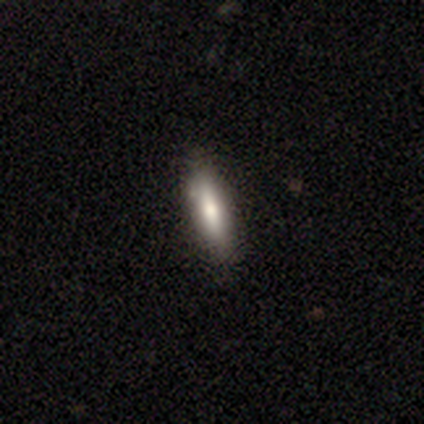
smooth_or_featured: smooth (p=0.80) [alt: featured or disk p=0.20]
how_rounded: cigar-shaped (p=0.75) [alt: in between p=0.25]
merging: none (p=0.80) [alt: minor disturbance p=0.20]